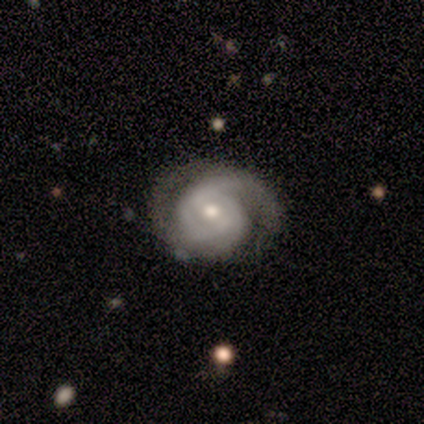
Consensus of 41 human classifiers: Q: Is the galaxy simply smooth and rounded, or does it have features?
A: featured or disk — 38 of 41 (93%).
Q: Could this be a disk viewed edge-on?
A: no — 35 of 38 (92%).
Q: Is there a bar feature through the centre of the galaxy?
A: weak — 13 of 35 (37%, tied with no).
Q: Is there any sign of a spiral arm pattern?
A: yes — 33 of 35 (94%).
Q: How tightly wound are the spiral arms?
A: tight — 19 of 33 (58%).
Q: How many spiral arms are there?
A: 2 — 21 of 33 (64%).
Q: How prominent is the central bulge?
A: moderate — 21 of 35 (60%).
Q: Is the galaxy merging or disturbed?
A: none — 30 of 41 (73%).